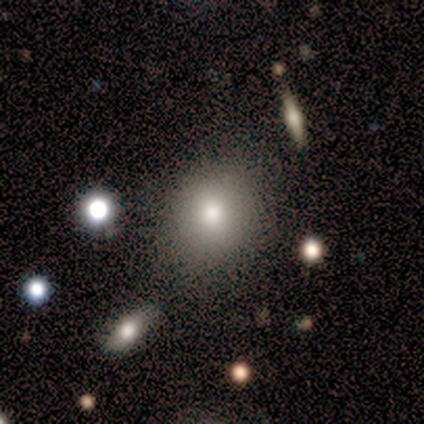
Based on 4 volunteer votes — Overall: smooth (100%). How rounded: round (100%). Merging: none (100%).